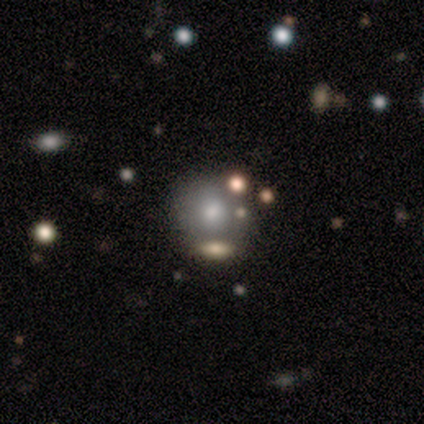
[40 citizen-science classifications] Volunteers were most divided on "merging": none: 70%, merger: 11%, minor disturbance: 8%, major disturbance: 3%. More confident: how rounded — round (85%); smooth or featured — smooth (85%).